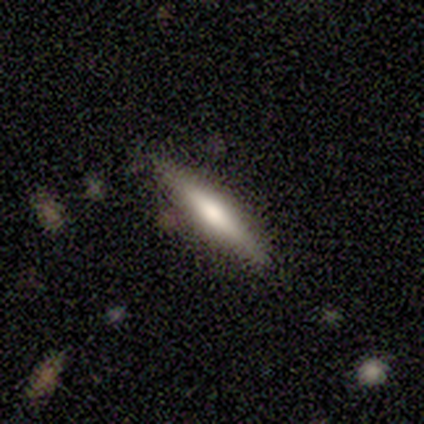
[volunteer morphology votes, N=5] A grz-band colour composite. It shows a smooth galaxy with no disk features (80%) that is cigar-shaped (75%). Merging: none (100%).